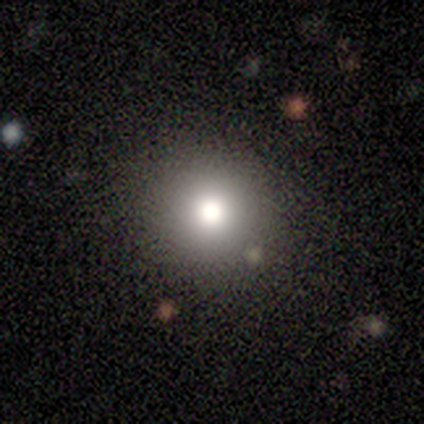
Smooth or featured? smooth (67%)
How rounded? round (100%)
Merging? none (60%)